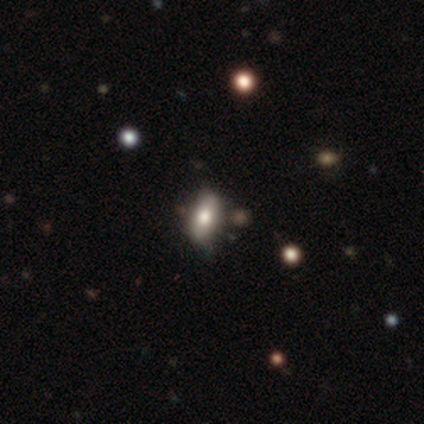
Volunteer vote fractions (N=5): Smooth or featured: smooth — 80% (featured or disk — 20%)
How rounded: in between — 100%
Merging: none — 60% (minor disturbance — 40%)